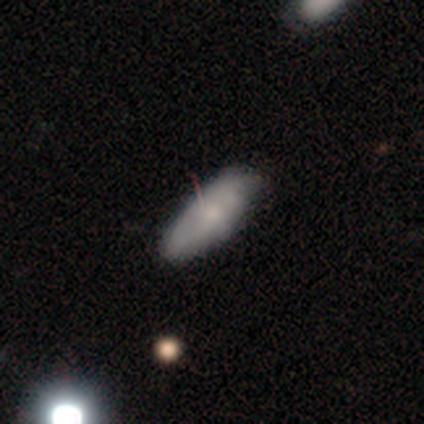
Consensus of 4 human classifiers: Smooth or featured? smooth (50%, tied with featured or disk)
How rounded? in between (100%)
Merging? none (50%, tied with minor disturbance)